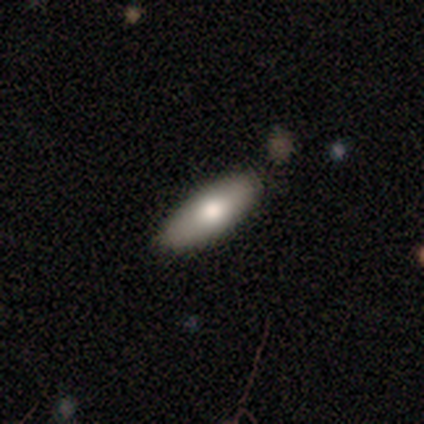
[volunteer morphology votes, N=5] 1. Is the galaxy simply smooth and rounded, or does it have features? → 80% smooth, 20% featured or disk, 0% star or artifact.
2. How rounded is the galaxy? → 100% in between, 0% round, 0% cigar-shaped.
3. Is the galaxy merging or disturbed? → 100% none, 0% minor disturbance, 0% major disturbance, 0% merger.